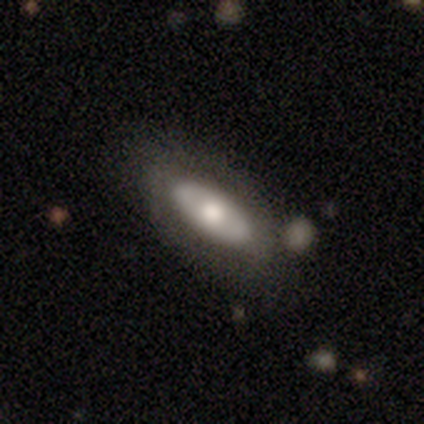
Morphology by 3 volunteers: Smooth or featured?
  - featured or disk: 67% *
  - smooth: 33%
  - star or artifact: 0%
Edge-on disk?
  - yes: 50% * (tied)
  - no: 50% * (tied)
Edge-on bulge?
  - rounded: 100% *
  - boxy: 0%
  - none: 0%
Merging?
  - none: 67% *
  - minor disturbance: 33%
  - major disturbance: 0%
  - merger: 0%